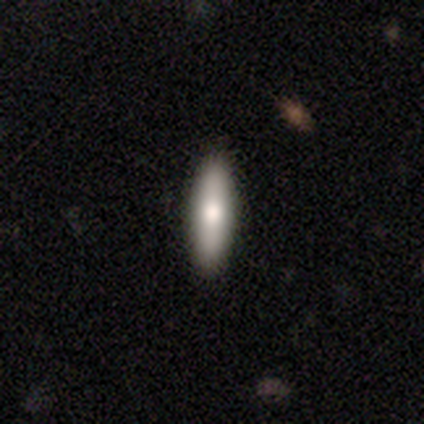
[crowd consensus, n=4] Smooth or featured? smooth (75%)
How rounded? cigar-shaped (67%)
Merging? none (100%)